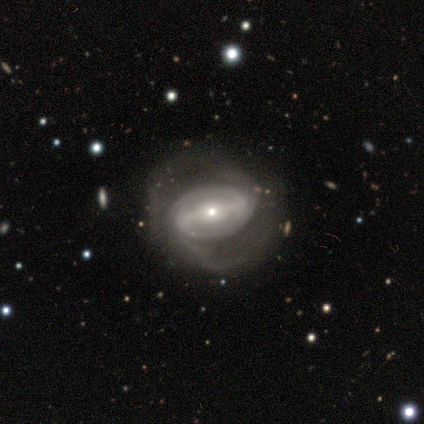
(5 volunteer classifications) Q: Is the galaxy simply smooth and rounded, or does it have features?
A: featured or disk — 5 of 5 (100%).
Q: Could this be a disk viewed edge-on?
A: no — 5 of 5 (100%).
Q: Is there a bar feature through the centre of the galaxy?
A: strong — 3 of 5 (60%).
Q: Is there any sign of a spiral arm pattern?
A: yes — 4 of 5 (80%).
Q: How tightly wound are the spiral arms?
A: tight — 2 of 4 (50%, tied with medium).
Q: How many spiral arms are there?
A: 2 — 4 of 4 (100%).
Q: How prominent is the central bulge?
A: small — 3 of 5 (60%).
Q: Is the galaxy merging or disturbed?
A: none — 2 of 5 (40%, tied with minor disturbance).